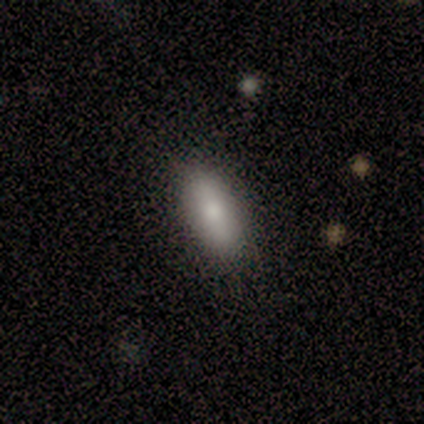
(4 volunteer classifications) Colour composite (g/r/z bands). It shows a smooth galaxy with no disk features (100%) that is in between round and cigar-shaped (100%). Merging: none (75%).